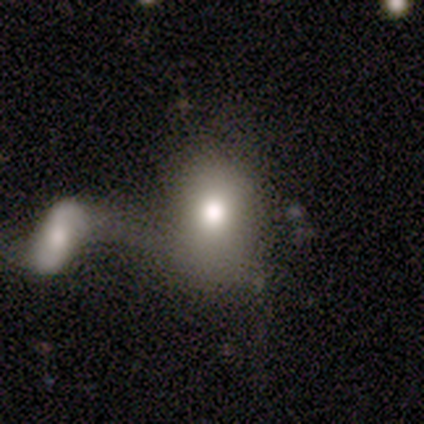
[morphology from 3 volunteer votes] smooth-or-featured: smooth: 67% | featured or disk: 33% | star or artifact: 0%
  how-rounded: in between: 100% | round: 0% | cigar-shaped: 0%
  merging: merger: 67% | none: 33% | minor disturbance: 0% | major disturbance: 0%